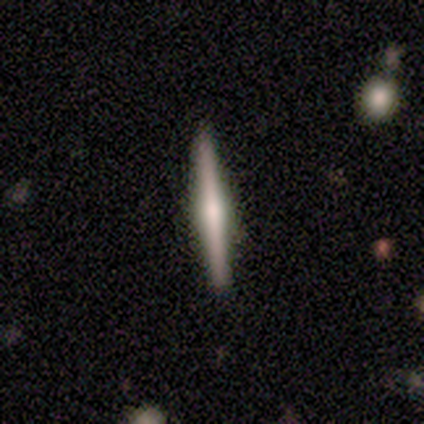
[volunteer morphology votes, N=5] A smooth galaxy with no disk features (60%) that is cigar-shaped (100%). Merging: none (100%).